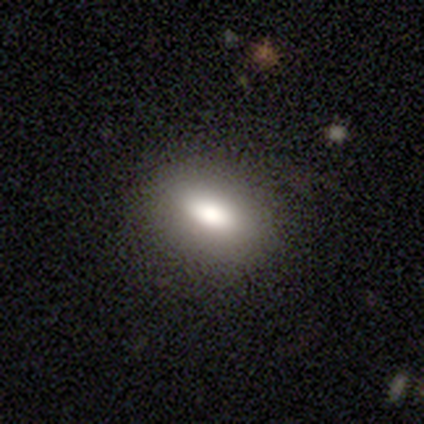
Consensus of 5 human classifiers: smooth-or-featured: smooth: 80% | featured or disk: 20% | star or artifact: 0%
  how-rounded: in between: 75% | round: 25% | cigar-shaped: 0%
  merging: none: 80% | minor disturbance: 20% | major disturbance: 0% | merger: 0%